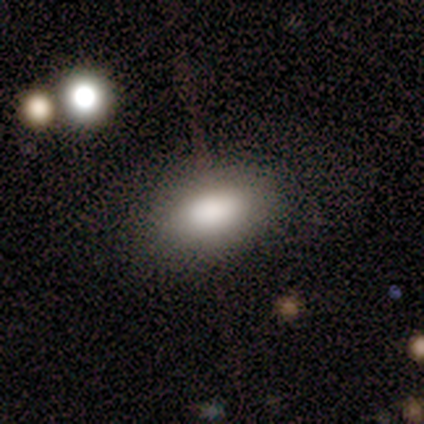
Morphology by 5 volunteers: smooth-or-featured: smooth: 80% | star or artifact: 20% | featured or disk: 0%
  how-rounded: in between: 100% | round: 0% | cigar-shaped: 0%
  merging: none: 75% | major disturbance: 25% | minor disturbance: 0% | merger: 0%